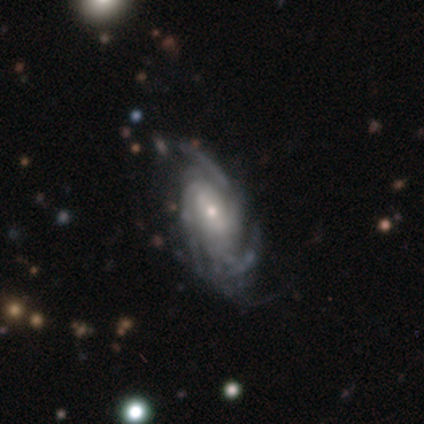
Volunteers were most divided on "spiral arm count": 3: 50%, can't tell: 43%, 4: 7%, 1: 0%, 2: 0%, more than 4: 0%. More confident: smooth or featured — featured or disk (100%); edge-on disk — no (100%); spiral arms — yes (100%); spiral winding — tight (71%); bulge size — small (71%); bar — weak (64%); merging — none (57%).